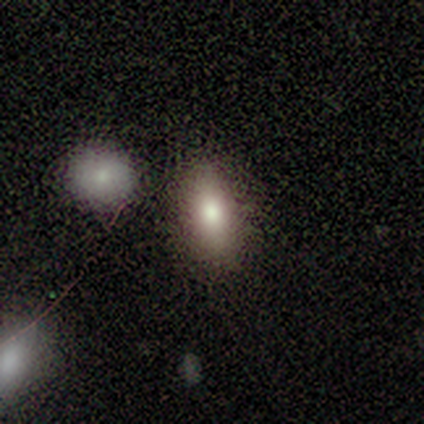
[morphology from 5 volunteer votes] This appears to be a smooth galaxy with no disk features (100%) that is in between round and cigar-shaped (100%). Merging: none (100%).